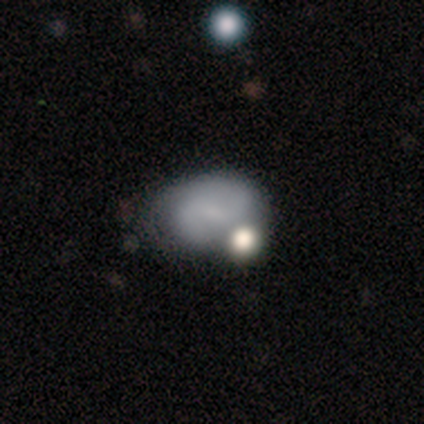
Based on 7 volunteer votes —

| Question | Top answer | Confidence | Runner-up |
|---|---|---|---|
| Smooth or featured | featured or disk | 57% | smooth (43%) |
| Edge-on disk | no | 100% | — |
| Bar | weak | 50% | strong (25%) |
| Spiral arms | yes | 50% | tied: no (50%) |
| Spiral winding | tight | 50% | tied: medium (50%) |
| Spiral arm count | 2 | 100% | — |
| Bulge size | small | 50% | moderate (25%) |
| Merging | none | 43% | tied: minor disturbance (43%) |